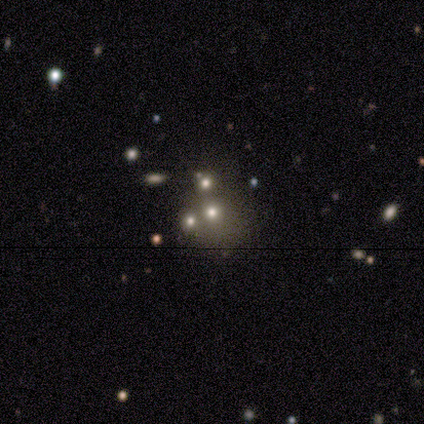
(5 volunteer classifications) Overall: smooth (40%, tied with featured or disk). How rounded: round (100%). Merging: merger (50%; none 25%).